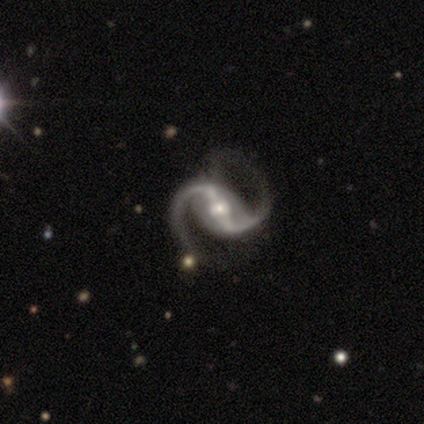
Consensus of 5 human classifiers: featured or disk 100%, smooth 0%, star or artifact 0%. Down the decision tree: edge-on disk — no (100%); bar — strong (60%); spiral arms — yes (100%); spiral arm count — 2 (100%); spiral winding — loose (60%); bulge size — small (60%); merging — none (60%).